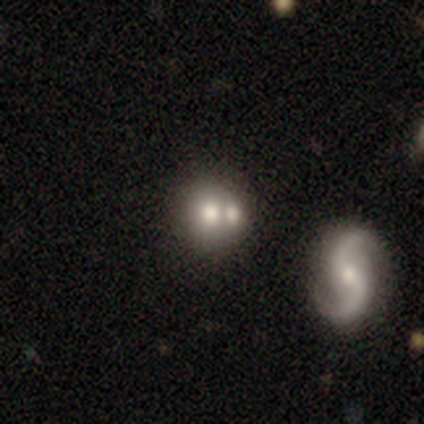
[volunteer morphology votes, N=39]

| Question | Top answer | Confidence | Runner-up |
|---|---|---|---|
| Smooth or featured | smooth | 49% | featured or disk (44%) |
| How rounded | round | 84% | in between (16%) |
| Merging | none | 50% | tied: merger (50%) |